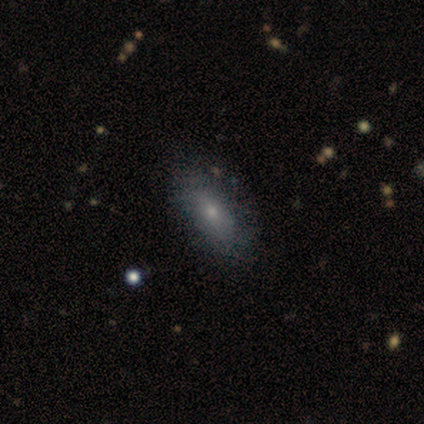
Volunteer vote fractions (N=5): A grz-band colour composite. It shows a smooth galaxy with no disk features (80%) that is in between round and cigar-shaped (75%). Merging: none (100%).